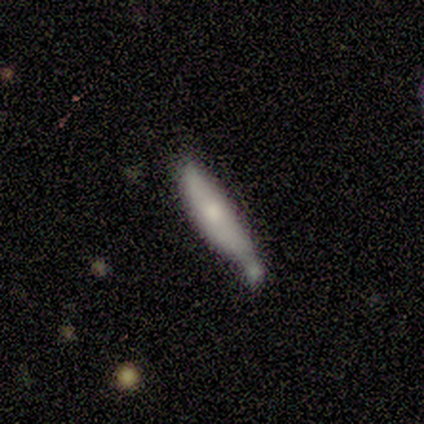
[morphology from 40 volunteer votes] Smooth or featured? 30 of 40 (75%) said smooth. How rounded? 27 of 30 (90%) said cigar-shaped. Merging? 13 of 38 (34%) said none.